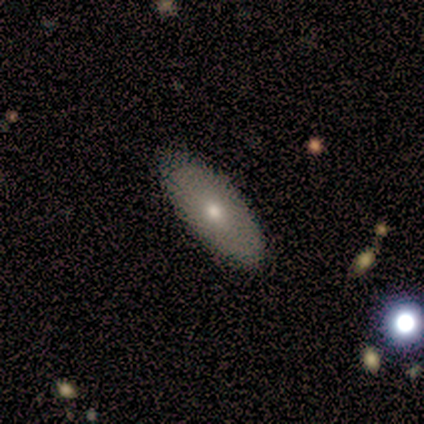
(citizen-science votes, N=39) This is likely a smooth galaxy (69%). How rounded: clearly in between (93%). Merging: clearly none (92%).